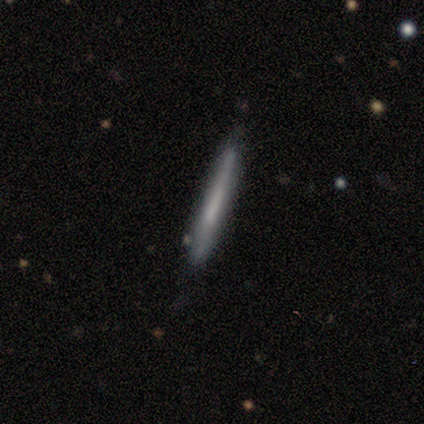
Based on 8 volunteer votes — smooth 50% (tied), featured or disk 50% (tied), star or artifact 0%. Down the decision tree: how rounded — cigar-shaped (100%); merging — none (50%).